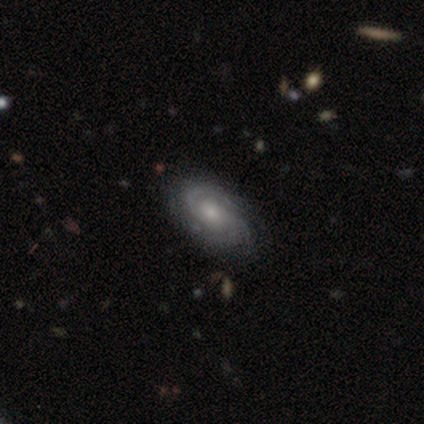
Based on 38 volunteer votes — Smooth or featured? 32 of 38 (84%) said featured or disk. Edge-on disk? 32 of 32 (100%) said no. Bar? 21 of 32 (66%) said no. Spiral arms? 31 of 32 (97%) said yes. Spiral winding? 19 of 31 (61%) said tight. Spiral arm count? 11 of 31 (35%) said 2. Bulge size? 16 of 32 (50%) said moderate. Merging? 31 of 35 (89%) said none.